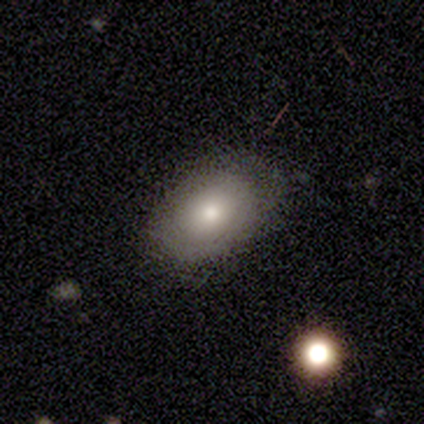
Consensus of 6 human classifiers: Q: Smooth or featured?
A: smooth (67%); runner-up: featured or disk (33%)
Q: How rounded?
A: in between (100%)
Q: Merging?
A: none (67%); runner-up: minor disturbance (33%)